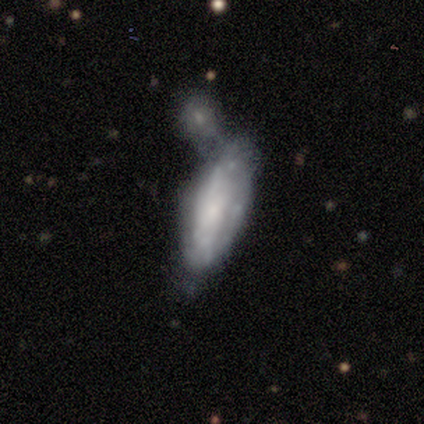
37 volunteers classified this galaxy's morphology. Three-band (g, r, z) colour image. It shows a smooth galaxy with no disk features (49%, tied with featured or disk) that is in between round and cigar-shaped (89%). Merging: merger (58%).